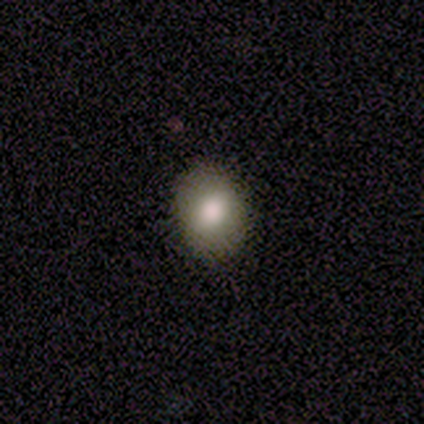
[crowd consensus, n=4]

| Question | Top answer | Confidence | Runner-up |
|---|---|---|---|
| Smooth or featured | smooth | 100% | — |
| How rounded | in between | 100% | — |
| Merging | none | 100% | — |